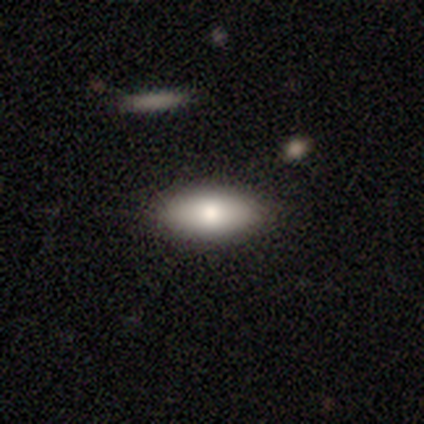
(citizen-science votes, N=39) Morphology: type=smooth (79%); roundness=in between (94%); merging=none (92%).